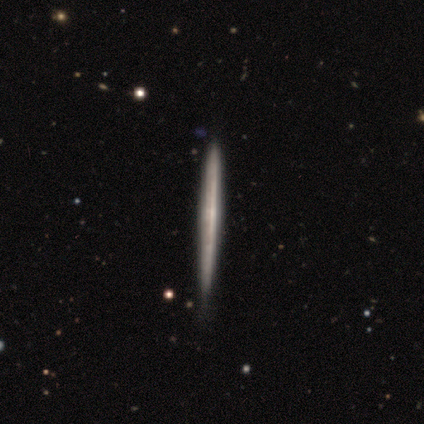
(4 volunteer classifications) Smooth or featured?
  - smooth: 50% * (tied)
  - featured or disk: 50% * (tied)
  - star or artifact: 0%
How rounded?
  - cigar-shaped: 100% *
  - round: 0%
  - in between: 0%
Merging?
  - none: 75% *
  - major disturbance: 25%
  - minor disturbance: 0%
  - merger: 0%